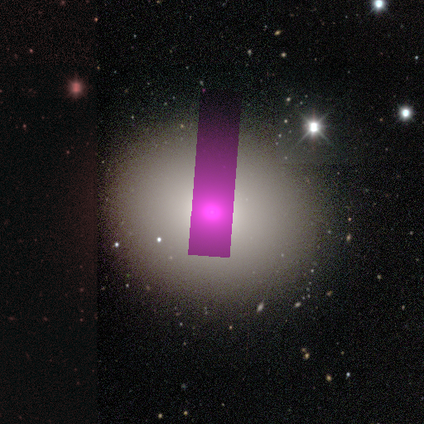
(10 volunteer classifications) Smooth or featured? smooth (80%)
How rounded? round (88%)
Merging? none (90%)